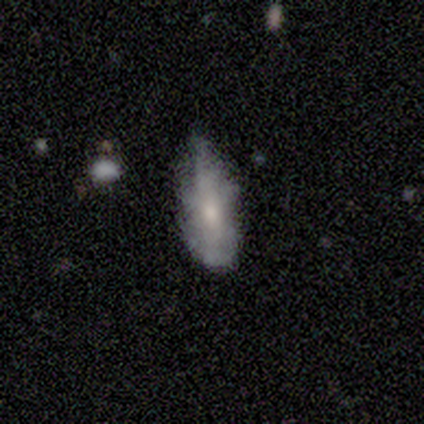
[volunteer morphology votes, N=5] This is marginally a smooth galaxy (40%, tied with featured or disk). How rounded: possibly in between (50%, tied with cigar-shaped). Merging: possibly none (50%).